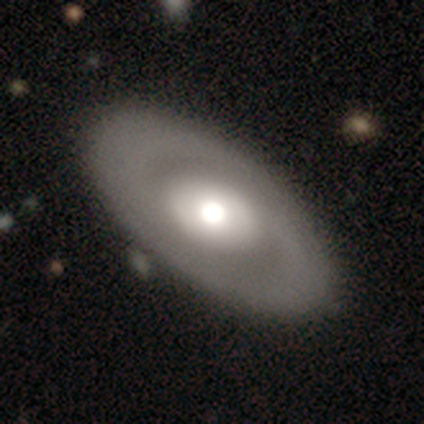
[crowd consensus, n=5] Q: Smooth or featured?
A: featured or disk (80%); runner-up: smooth (20%)
Q: Edge-on disk?
A: no (75%); runner-up: yes (25%)
Q: Bar?
A: no (100%)
Q: Spiral arms?
A: no (67%); runner-up: yes (33%)
Q: Bulge size?
A: moderate (100%)
Q: Merging?
A: none (100%)